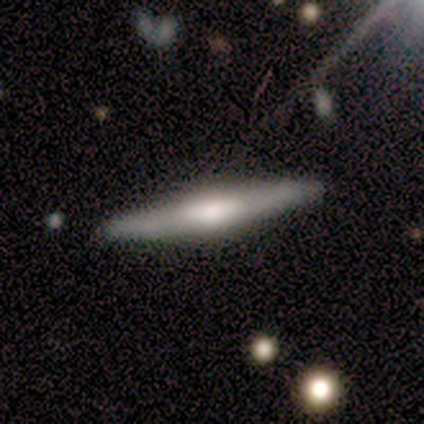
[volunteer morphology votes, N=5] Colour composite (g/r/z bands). It shows a smooth galaxy with no disk features (40%, tied with featured or disk) that is cigar-shaped (100%). Merging: none (100%).